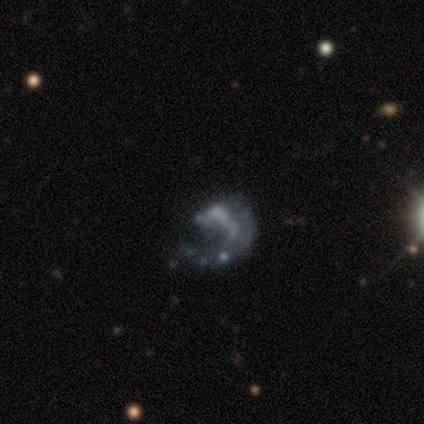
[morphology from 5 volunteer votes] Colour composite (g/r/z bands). It shows a featured or disk galaxy (80%) with no bar (75%), 1 (100%) tight (67%) spiral arms (75%) and no central bulge (75%). Merging: none (40%).